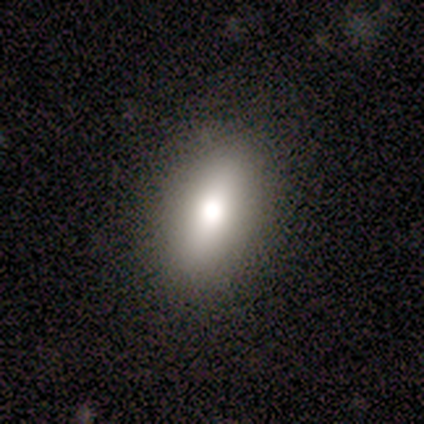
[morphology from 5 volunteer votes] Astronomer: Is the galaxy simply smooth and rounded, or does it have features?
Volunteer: smooth — 80%.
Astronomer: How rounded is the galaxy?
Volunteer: in between — 100%.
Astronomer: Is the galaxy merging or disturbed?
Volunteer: none — 100%.